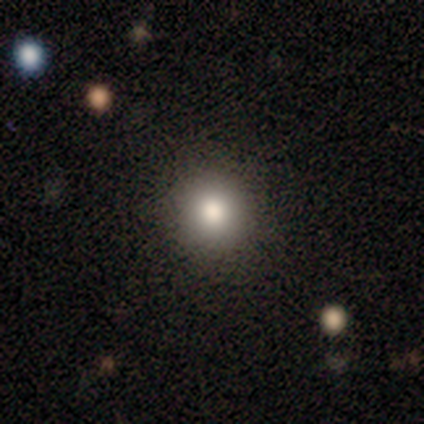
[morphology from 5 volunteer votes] A smooth galaxy with no disk features (100%) that is round (80%). Merging: none (100%).